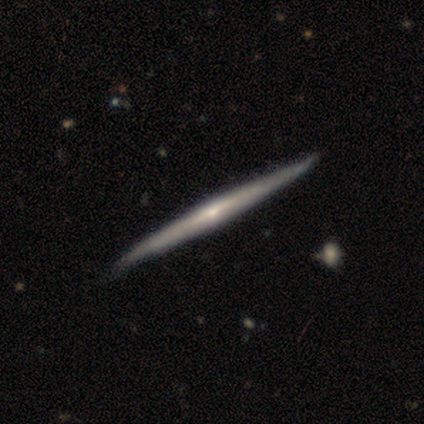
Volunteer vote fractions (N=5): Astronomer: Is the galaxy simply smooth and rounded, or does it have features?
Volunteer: featured or disk — 80%.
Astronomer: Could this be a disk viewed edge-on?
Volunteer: yes — 100%.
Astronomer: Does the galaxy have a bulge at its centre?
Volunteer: rounded — 50%.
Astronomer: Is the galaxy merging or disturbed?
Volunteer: none — 80%.